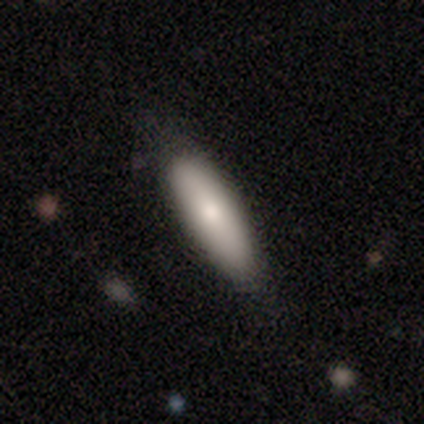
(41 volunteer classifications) smooth 85%, featured or disk 12%, star or artifact 2%. Down the decision tree: how rounded — in between (54%); merging — none (75%).